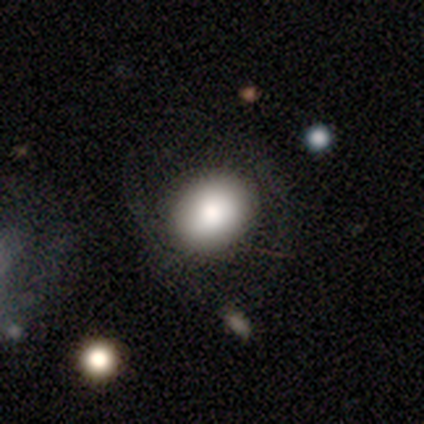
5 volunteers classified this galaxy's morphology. This is clearly a smooth galaxy (100%). How rounded: clearly round (80%). Merging: clearly none (80%).